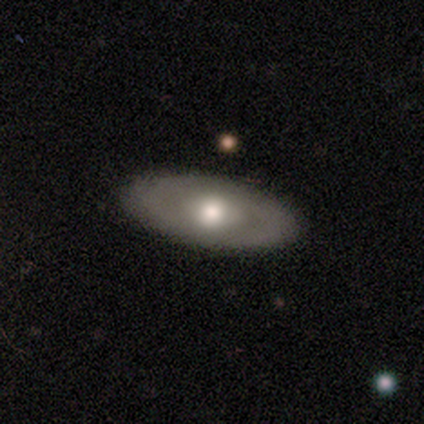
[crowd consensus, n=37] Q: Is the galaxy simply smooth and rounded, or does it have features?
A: featured or disk — 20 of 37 (54%).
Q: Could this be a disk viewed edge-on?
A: no — 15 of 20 (75%).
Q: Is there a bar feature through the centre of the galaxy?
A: no — 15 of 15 (100%).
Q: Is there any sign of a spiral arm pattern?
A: no — 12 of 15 (80%).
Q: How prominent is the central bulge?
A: moderate — 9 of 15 (60%).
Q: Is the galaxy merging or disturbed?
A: none — 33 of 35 (94%).